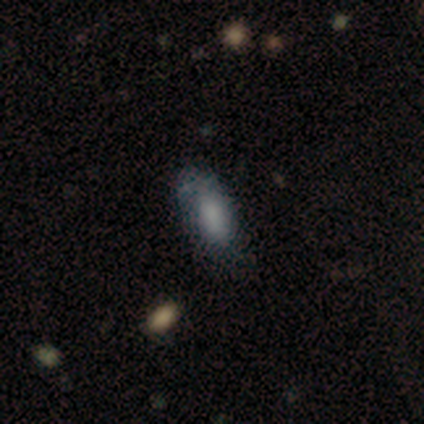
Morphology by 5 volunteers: smooth-or-featured: smooth: 80% | featured or disk: 20% | star or artifact: 0%
  how-rounded: in between: 100% | round: 0% | cigar-shaped: 0%
  merging: minor disturbance: 60% | none: 40% | major disturbance: 0% | merger: 0%